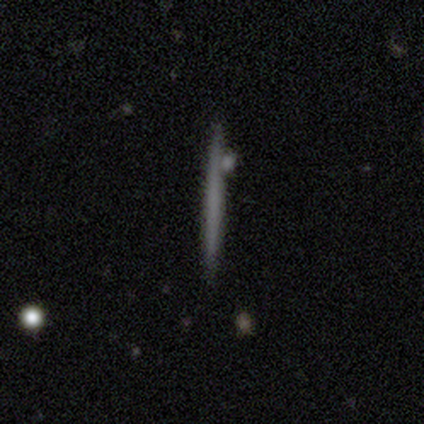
smooth-or-featured: smooth: 67% | featured or disk: 33% | star or artifact: 0%
  how-rounded: cigar-shaped: 100% | round: 0% | in between: 0%
  merging: none: 67% | minor disturbance: 33% | major disturbance: 0% | merger: 0%